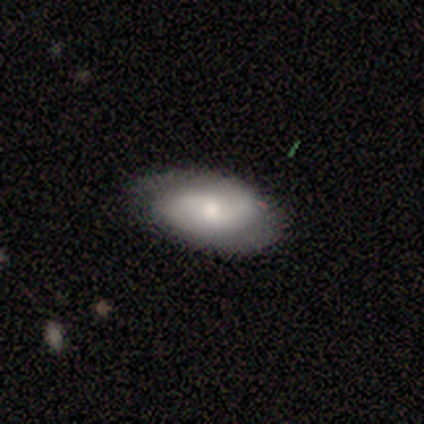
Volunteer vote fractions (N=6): This appears to be a featured or disk galaxy (83%) with no bar (100%), 2 (75%) medium (50%) spiral arms (80%) and a moderate central bulge (60%). Merging: none (67%).